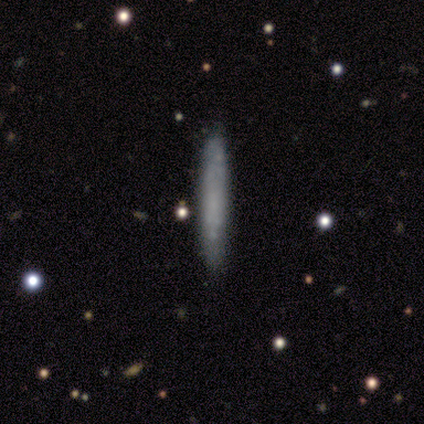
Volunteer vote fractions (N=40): Q: Smooth or featured?
A: smooth (70%); runner-up: featured or disk (28%)
Q: How rounded?
A: cigar-shaped (96%); runner-up: in between (4%)
Q: Merging?
A: none (90%); runner-up: minor disturbance (10%)